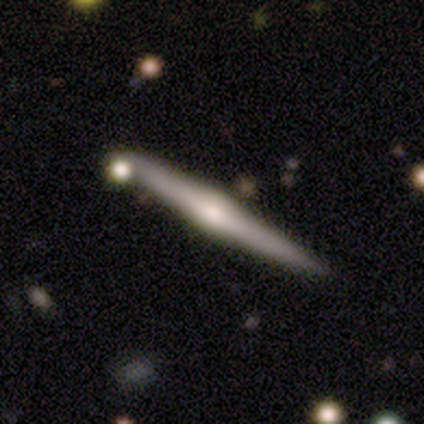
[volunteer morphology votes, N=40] Smooth or featured: featured or disk — 70% (smooth — 25%)
Edge-on disk: yes — 100%
Edge-on bulge: rounded — 68% (none — 18%)
Merging: none — 82% (minor disturbance — 11%)